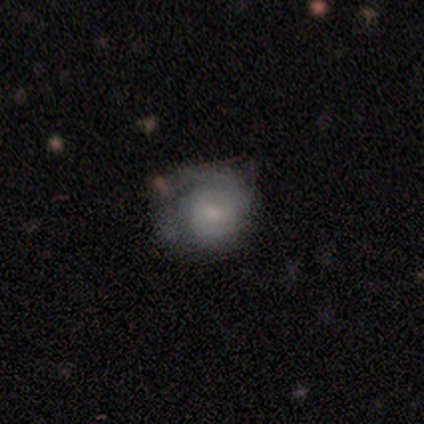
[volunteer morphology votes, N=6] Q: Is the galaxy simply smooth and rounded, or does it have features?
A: featured or disk — 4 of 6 (67%).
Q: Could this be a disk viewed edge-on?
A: no — 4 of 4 (100%).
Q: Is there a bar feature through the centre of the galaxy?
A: weak — 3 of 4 (75%).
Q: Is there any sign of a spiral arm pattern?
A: yes — 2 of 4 (50%, tied with no).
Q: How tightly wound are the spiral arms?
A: tight — 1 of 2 (50%, tied with loose).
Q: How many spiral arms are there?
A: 1 — 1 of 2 (50%, tied with 2).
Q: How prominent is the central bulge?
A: moderate — 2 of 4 (50%, tied with small).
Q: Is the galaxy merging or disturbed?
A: none — 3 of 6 (50%).